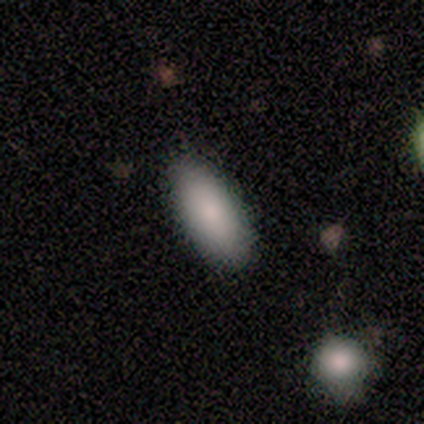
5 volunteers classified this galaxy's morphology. This appears to be a smooth galaxy with no disk features (80%) that is in between round and cigar-shaped (100%). Merging: none (100%).